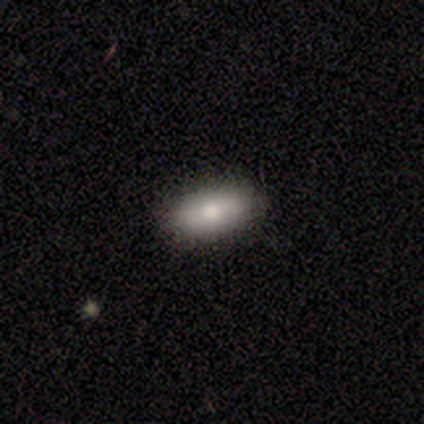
Smooth or featured: smooth — 60% (featured or disk — 20%)
How rounded: in between — 100%
Merging: none — 100%